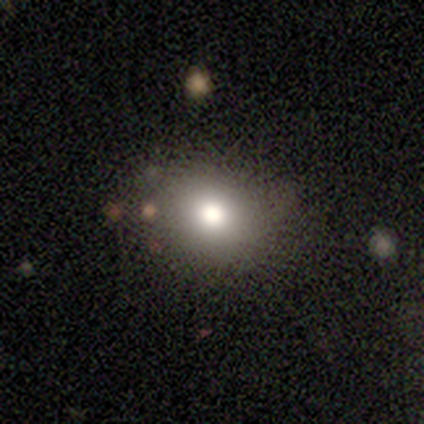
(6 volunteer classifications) This is clearly a smooth galaxy (83%). How rounded: likely round (60%). Merging: clearly none (100%).